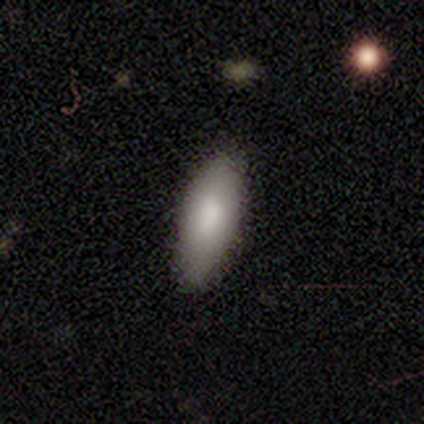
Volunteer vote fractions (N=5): Smooth or featured? smooth (100%)
How rounded? in between (100%)
Merging? none (100%)